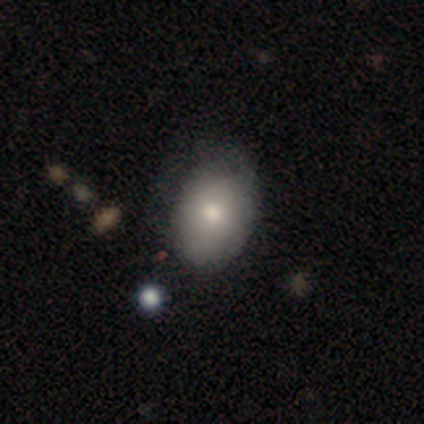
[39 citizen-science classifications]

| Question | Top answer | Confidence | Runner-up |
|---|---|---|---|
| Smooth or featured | smooth | 74% | featured or disk (21%) |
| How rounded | in between | 69% | round (31%) |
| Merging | none | 73% | minor disturbance (24%) |